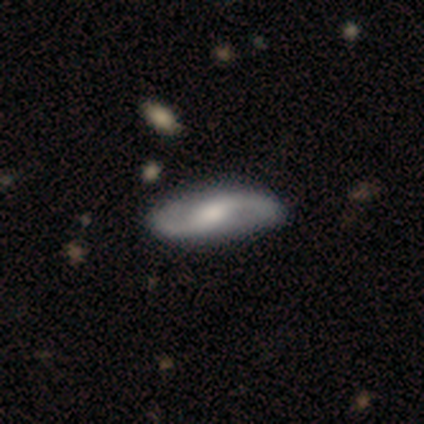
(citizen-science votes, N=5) Q: Smooth or featured?
A: featured or disk (80%); runner-up: star or artifact (20%)
Q: Edge-on disk?
A: no (100%)
Q: Bar?
A: weak (75%); runner-up: no (25%)
Q: Spiral arms?
A: yes (100%)
Q: Spiral winding?
A: loose (75%); runner-up: medium (25%)
Q: Spiral arm count?
A: 2 (100%)
Q: Bulge size?
A: small (50%); runner-up: large (25%)
Q: Merging?
A: none (100%)